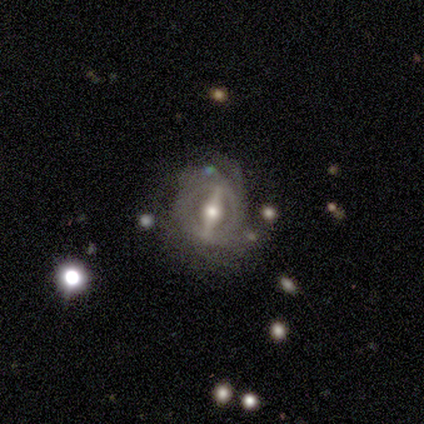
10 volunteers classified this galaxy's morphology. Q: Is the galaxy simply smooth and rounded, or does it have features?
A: featured or disk — 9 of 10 (90%).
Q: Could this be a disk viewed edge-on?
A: no — 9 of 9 (100%).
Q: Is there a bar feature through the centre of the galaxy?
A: strong — 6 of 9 (67%).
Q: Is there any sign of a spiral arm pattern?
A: no — 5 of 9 (56%).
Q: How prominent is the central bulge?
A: moderate — 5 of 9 (56%).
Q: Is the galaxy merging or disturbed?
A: minor disturbance — 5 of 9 (56%).